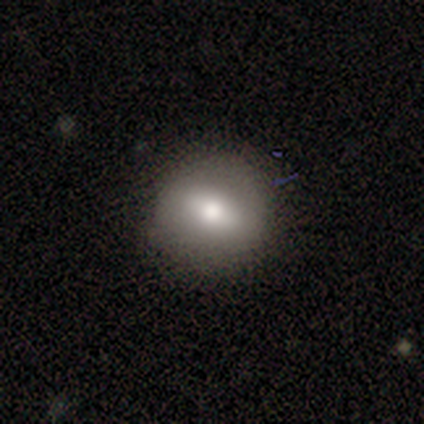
Q: Smooth or featured?
A: smooth (60%); runner-up: featured or disk (40%)
Q: How rounded?
A: round (67%); runner-up: in between (33%)
Q: Merging?
A: none (100%)